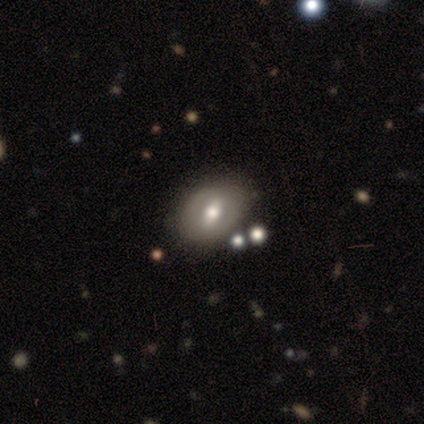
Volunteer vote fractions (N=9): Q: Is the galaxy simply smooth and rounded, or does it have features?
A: featured or disk — 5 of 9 (56%).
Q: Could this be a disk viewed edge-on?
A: no — 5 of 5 (100%).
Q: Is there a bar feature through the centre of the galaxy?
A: strong — 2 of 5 (40%, tied with no).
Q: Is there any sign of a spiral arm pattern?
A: no — 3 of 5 (60%).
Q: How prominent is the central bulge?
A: moderate — 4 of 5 (80%).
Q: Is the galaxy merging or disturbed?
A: none — 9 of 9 (100%).